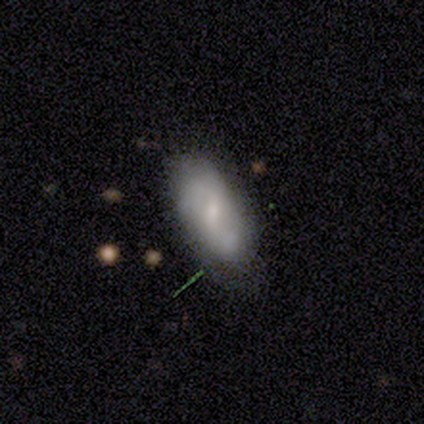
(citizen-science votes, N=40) Smooth or featured?
  - featured or disk: 52% *
  - smooth: 38%
  - star or artifact: 10%
Edge-on disk?
  - no: 95% *
  - yes: 5%
Bar?
  - weak: 65% *
  - strong: 20%
  - no: 15%
Spiral arms?
  - yes: 60% *
  - no: 40%
Spiral winding?
  - medium: 50% *
  - tight: 25%
  - loose: 25%
Spiral arm count?
  - 2: 67% *
  - can't tell: 17%
  - 3: 8%
  - 4: 8%
  - 1: 0%
  - more than 4: 0%
Bulge size?
  - small: 65% *
  - moderate: 30%
  - none: 5%
  - dominant: 0%
  - large: 0%
Merging?
  - none: 50% *
  - minor disturbance: 33%
  - major disturbance: 14%
  - merger: 3%